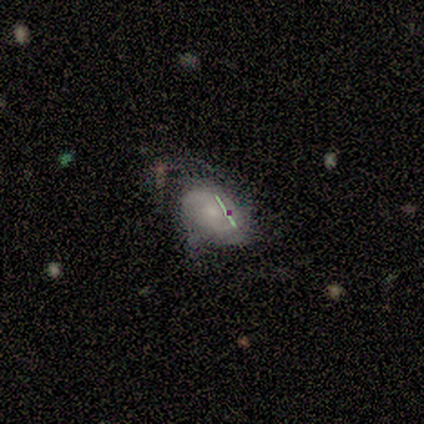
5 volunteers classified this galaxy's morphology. smooth-or-featured: smooth: 80% | featured or disk: 20% | star or artifact: 0%
  how-rounded: in between: 100% | round: 0% | cigar-shaped: 0%
  merging: none: 60% | minor disturbance: 20% | major disturbance: 20% | merger: 0%